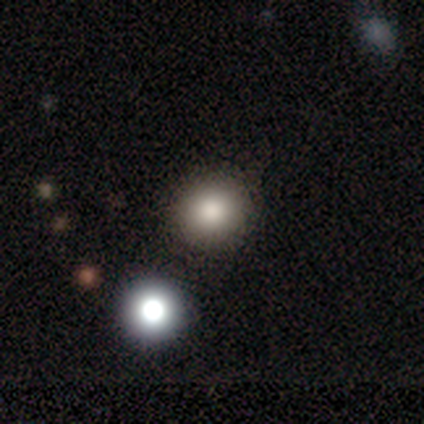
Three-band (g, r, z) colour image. It shows a smooth galaxy with no disk features (75%) that is round (100%). Merging: none (100%).